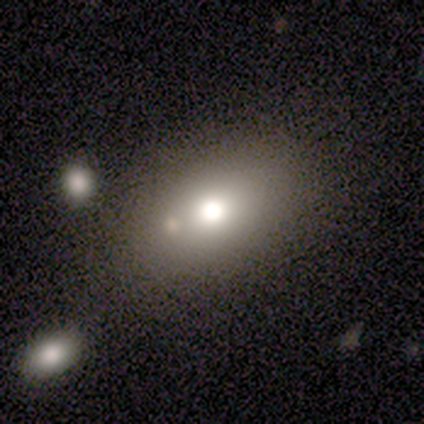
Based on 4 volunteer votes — smooth 75%, featured or disk 25%, star or artifact 0%. Down the decision tree: how rounded — in between (67%); merging — none (75%).